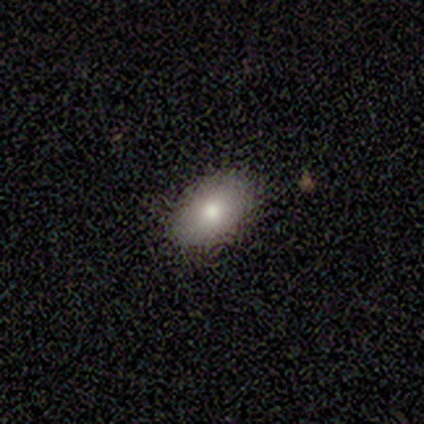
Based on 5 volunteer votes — smooth 100%, featured or disk 0%, star or artifact 0%. Down the decision tree: how rounded — in between (100%); merging — none (80%).